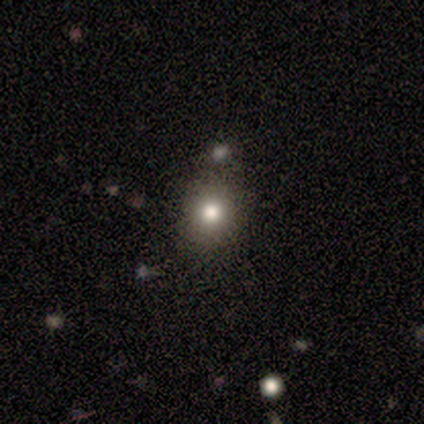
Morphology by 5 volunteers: smooth_or_featured: star or artifact (p=0.80) [alt: smooth p=0.20]